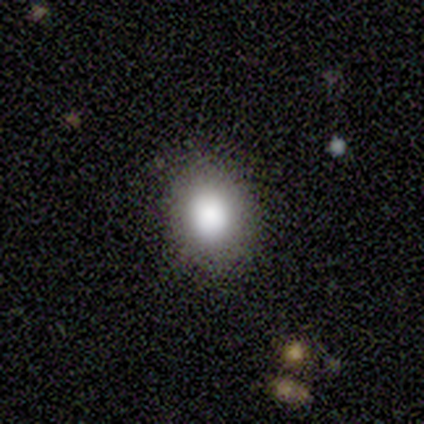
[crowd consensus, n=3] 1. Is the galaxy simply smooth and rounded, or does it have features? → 100% smooth, 0% featured or disk, 0% star or artifact.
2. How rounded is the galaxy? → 67% round, 33% in between, 0% cigar-shaped.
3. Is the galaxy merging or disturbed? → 100% none, 0% minor disturbance, 0% major disturbance, 0% merger.